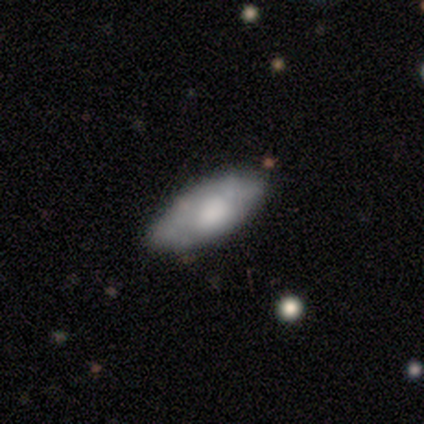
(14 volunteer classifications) This appears to be a smooth galaxy with no disk features (86%) that is in between round and cigar-shaped (83%). Merging: none (93%).